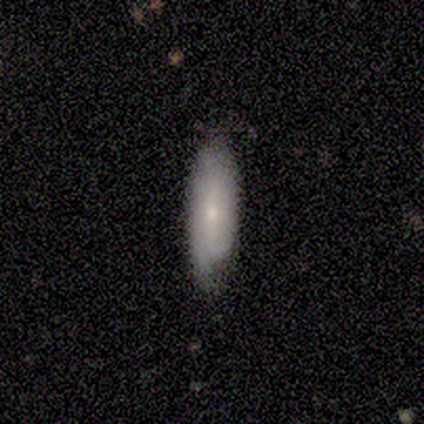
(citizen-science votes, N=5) Smooth or featured?
  - smooth: 60% *
  - featured or disk: 40%
  - star or artifact: 0%
How rounded?
  - in between: 67% *
  - cigar-shaped: 33%
  - round: 0%
Merging?
  - none: 80% *
  - minor disturbance: 20%
  - major disturbance: 0%
  - merger: 0%